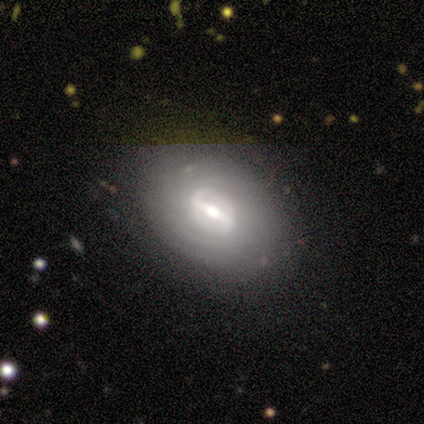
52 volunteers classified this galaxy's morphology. This is clearly a featured or disk galaxy (83%). It is clearly not viewed edge-on (93%). Bar: likely strong (68%). Spiral arm pattern: likely yes (72%). Spiral arm count: possibly can't tell (52%). Spiral winding: likely tight (62%). Central bulge: possibly moderate (48%). Merging: likely none (79%).